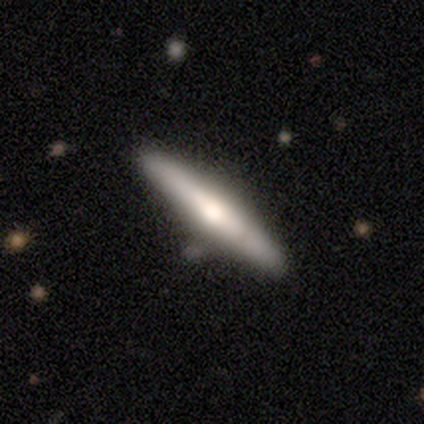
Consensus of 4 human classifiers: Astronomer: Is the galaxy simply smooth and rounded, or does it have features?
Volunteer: smooth — 75%.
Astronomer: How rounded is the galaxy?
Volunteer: cigar-shaped — 67%.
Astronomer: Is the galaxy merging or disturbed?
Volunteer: none — 100%.